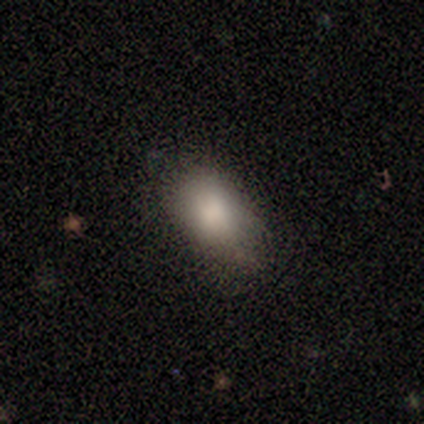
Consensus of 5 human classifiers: Q: Smooth or featured?
A: smooth (100%)
Q: How rounded?
A: in between (80%); runner-up: cigar-shaped (20%)
Q: Merging?
A: none (100%)